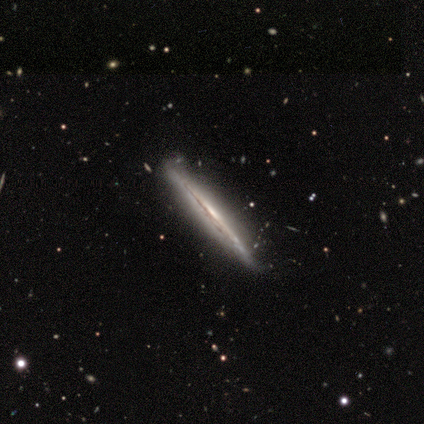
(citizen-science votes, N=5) smooth-or-featured: featured or disk: 80% | smooth: 20% | star or artifact: 0%
  disk-edge-on: yes: 100% | no: 0%
    edge-on-bulge: none: 75% | boxy: 25% | rounded: 0%
  merging: none: 80% | minor disturbance: 20% | major disturbance: 0% | merger: 0%